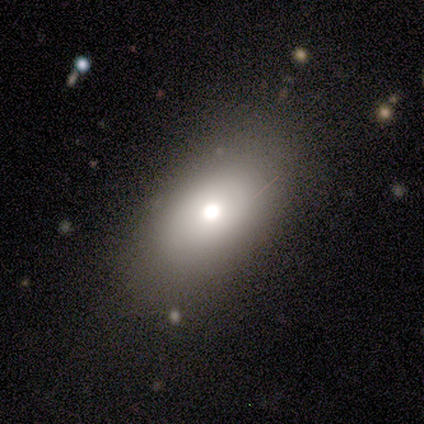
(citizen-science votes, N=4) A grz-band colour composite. It shows a smooth galaxy with no disk features (75%) that is in between round and cigar-shaped (100%). Merging: none (100%).